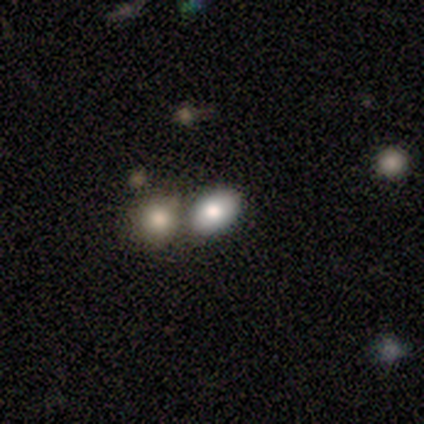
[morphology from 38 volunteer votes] This appears to be a smooth galaxy with no disk features (74%) that is in between round and cigar-shaped (75%). Merging: merger (49%).